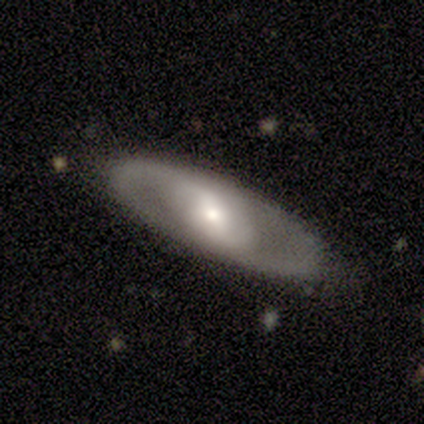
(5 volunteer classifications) This is marginally a smooth galaxy (40%, tied with featured or disk). How rounded: possibly in between (50%, tied with cigar-shaped). Merging: likely none (75%).